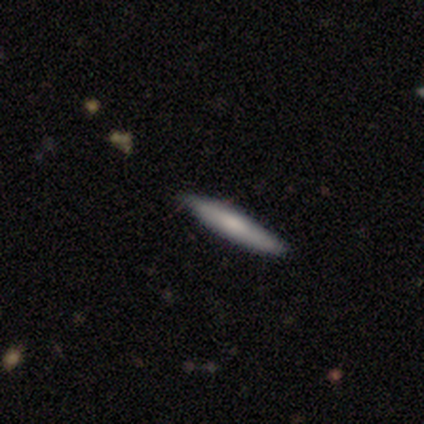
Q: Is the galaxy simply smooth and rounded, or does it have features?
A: smooth — 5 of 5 (100%).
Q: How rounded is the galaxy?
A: cigar-shaped — 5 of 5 (100%).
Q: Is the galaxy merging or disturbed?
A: none — 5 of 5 (100%).